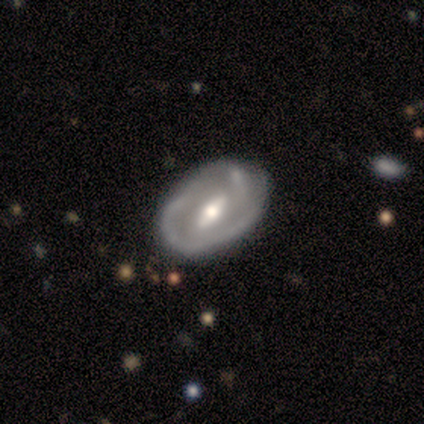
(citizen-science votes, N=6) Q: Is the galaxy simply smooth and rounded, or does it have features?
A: featured or disk — 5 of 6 (83%).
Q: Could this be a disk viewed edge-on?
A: no — 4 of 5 (80%).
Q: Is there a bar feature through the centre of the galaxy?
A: strong — 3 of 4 (75%).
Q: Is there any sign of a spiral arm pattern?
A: yes — 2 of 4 (50%, tied with no).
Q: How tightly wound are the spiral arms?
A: tight — 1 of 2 (50%, tied with medium).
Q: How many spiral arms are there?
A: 2 — 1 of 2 (50%, tied with can't tell).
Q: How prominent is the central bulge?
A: moderate — 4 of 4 (100%).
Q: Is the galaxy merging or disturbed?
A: none — 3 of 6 (50%).